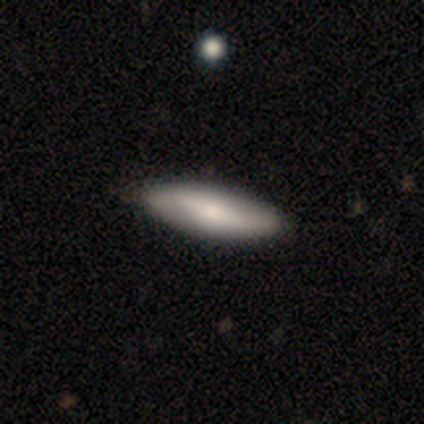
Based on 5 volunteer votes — Q: Smooth or featured?
A: smooth (100%)
Q: How rounded?
A: cigar-shaped (60%); runner-up: in between (40%)
Q: Merging?
A: none (80%); runner-up: minor disturbance (20%)